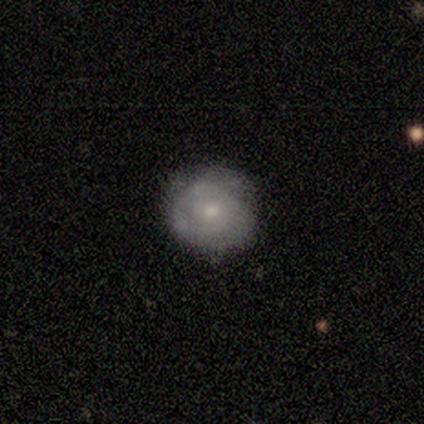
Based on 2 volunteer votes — Smooth or featured?
  - smooth: 100% *
  - featured or disk: 0%
  - star or artifact: 0%
How rounded?
  - round: 100% *
  - in between: 0%
  - cigar-shaped: 0%
Merging?
  - none: 100% *
  - minor disturbance: 0%
  - major disturbance: 0%
  - merger: 0%